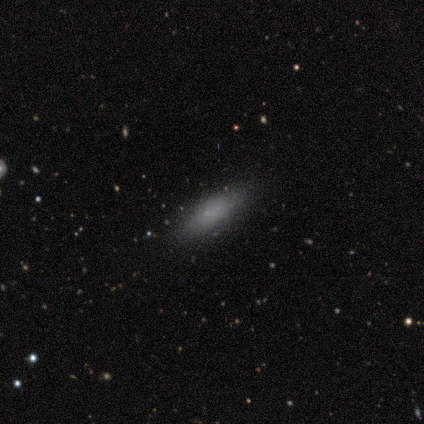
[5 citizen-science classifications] This appears to be a smooth galaxy with no disk features (80%) that is in between round and cigar-shaped (75%). Merging: none (80%).